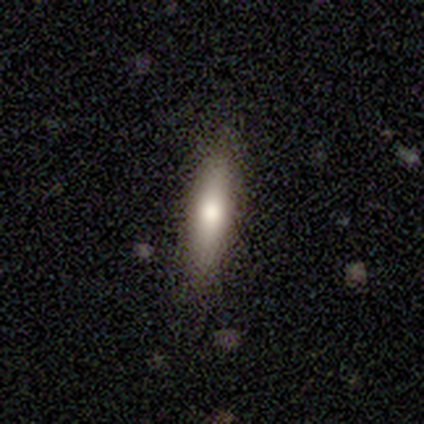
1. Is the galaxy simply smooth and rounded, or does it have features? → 68% smooth, 27% featured or disk, 5% star or artifact.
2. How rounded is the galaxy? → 72% cigar-shaped, 28% in between, 0% round.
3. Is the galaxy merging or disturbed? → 89% none, 6% minor disturbance, 6% major disturbance, 0% merger.